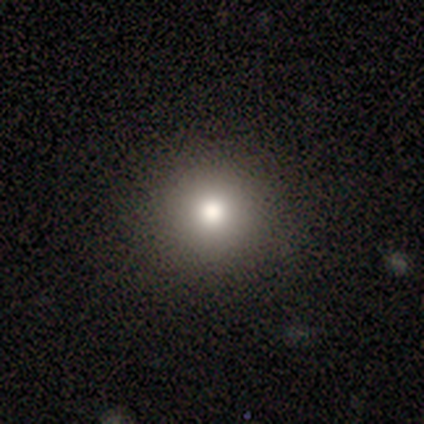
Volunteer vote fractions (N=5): A smooth galaxy with no disk features (60%) that is round (100%).

Vote fractions:
- Smooth or featured? smooth: 60% / featured or disk: 20% / star or artifact: 20%
- How rounded? round: 100% / in between: 0% / cigar-shaped: 0%
- Merging? none: 100% / minor disturbance: 0% / major disturbance: 0% / merger: 0%